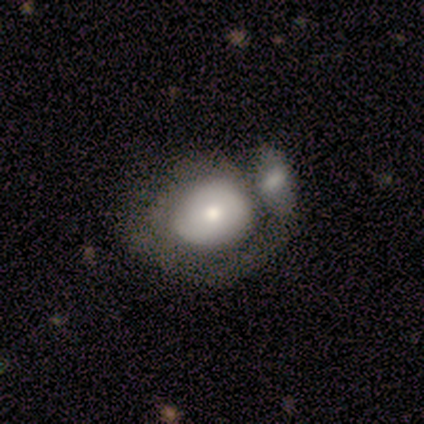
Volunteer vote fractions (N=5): Q: Smooth or featured?
A: featured or disk (80%); runner-up: smooth (20%)
Q: Edge-on disk?
A: no (100%)
Q: Bar?
A: no (100%)
Q: Spiral arms?
A: yes (50%); tied with: no (50%)
Q: Spiral winding?
A: tight (50%); tied with: medium (50%)
Q: Spiral arm count?
A: 1 (100%)
Q: Bulge size?
A: small (50%); runner-up: moderate (25%)
Q: Merging?
A: merger (40%); runner-up: none (20%)